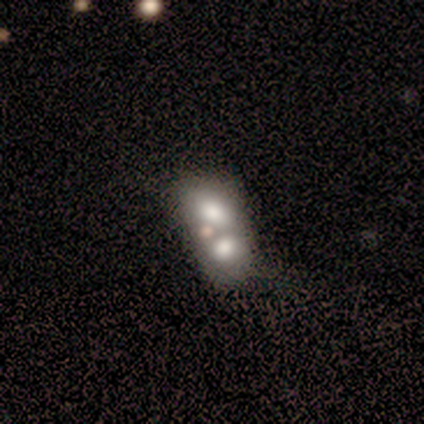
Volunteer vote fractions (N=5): A smooth galaxy with no disk features (100%) that is in between round and cigar-shaped (80%). Merging: merger (80%).